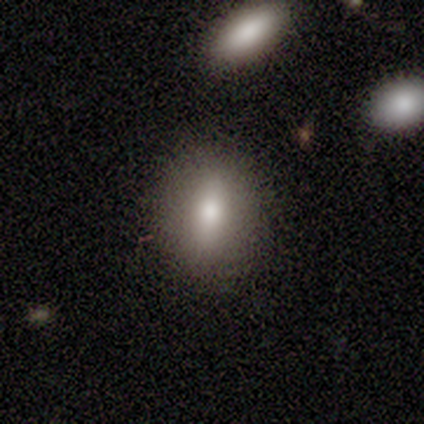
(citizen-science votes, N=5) Q: Smooth or featured?
A: smooth (100%)
Q: How rounded?
A: round (40%); tied with: in between (40%)
Q: Merging?
A: none (100%)